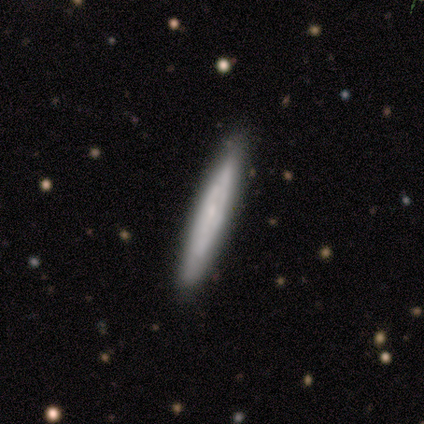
Smooth or featured?
  - smooth: 60% *
  - featured or disk: 40%
  - star or artifact: 0%
How rounded?
  - cigar-shaped: 100% *
  - round: 0%
  - in between: 0%
Merging?
  - none: 80% *
  - minor disturbance: 20%
  - major disturbance: 0%
  - merger: 0%